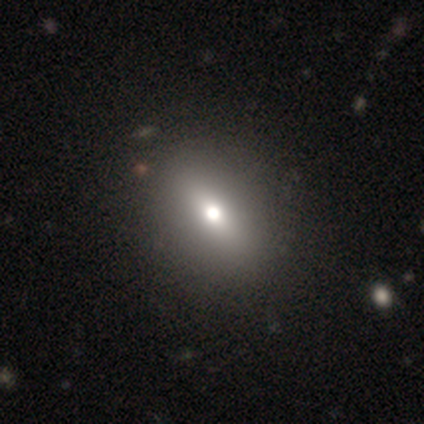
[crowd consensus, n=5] Morphology: type=smooth (80%); roundness=in between (75%); merging=none (80%).